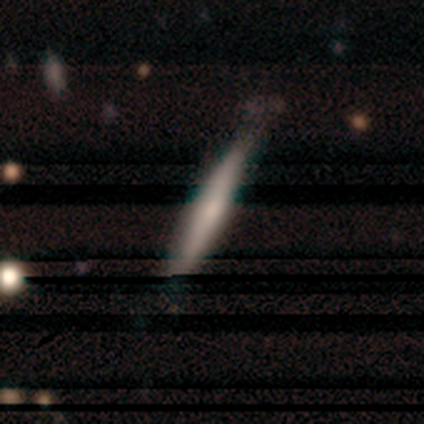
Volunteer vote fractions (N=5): This appears to be a smooth galaxy with no disk features (60%) that is cigar-shaped (100%). Merging: none (50%, tied with minor disturbance).